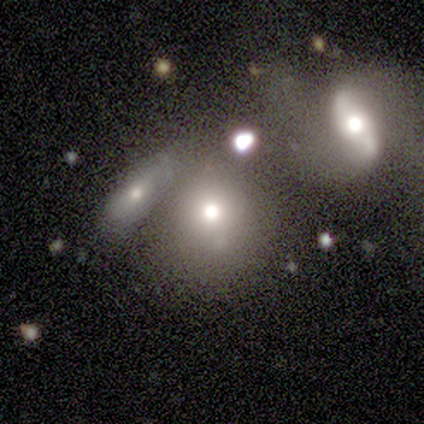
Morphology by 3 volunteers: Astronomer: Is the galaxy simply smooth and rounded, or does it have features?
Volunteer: smooth — 67%.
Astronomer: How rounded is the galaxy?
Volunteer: in between — 100%.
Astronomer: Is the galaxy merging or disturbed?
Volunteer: none — 50%, tied with merger at 50%.